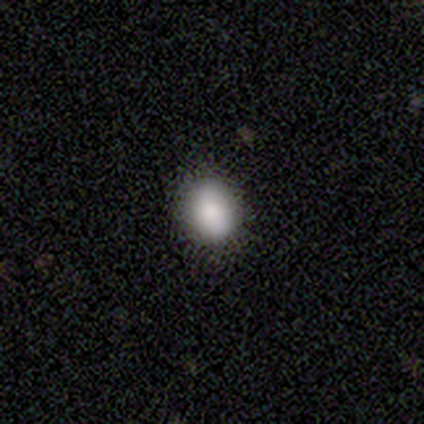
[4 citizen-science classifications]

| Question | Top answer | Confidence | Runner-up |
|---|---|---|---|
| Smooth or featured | smooth | 100% | — |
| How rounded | in between | 75% | round (25%) |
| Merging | none | 100% | — |